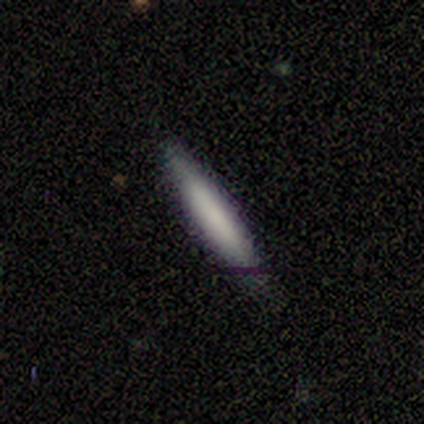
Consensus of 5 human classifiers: Smooth or featured: smooth — 100%
How rounded: cigar-shaped — 100%
Merging: none — 100%